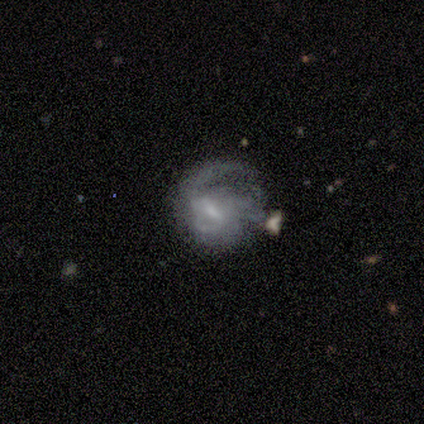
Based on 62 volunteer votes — featured or disk 79%, smooth 18%, star or artifact 3%. Down the decision tree: edge-on disk — no (100%); bar — weak (61%); spiral arms — yes (90%); spiral arm count — can't tell (36%); spiral winding — medium (50%); bulge size — small (57%); merging — major disturbance (43%).